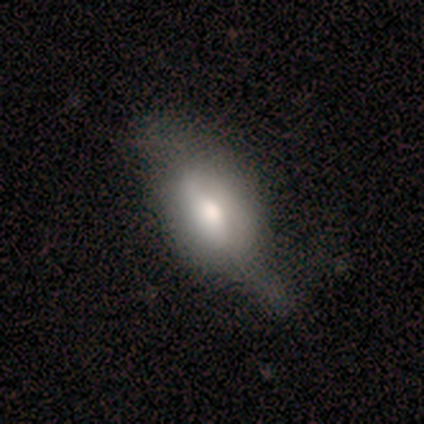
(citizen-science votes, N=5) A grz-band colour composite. It shows a smooth galaxy with no disk features (80%) that is in between round and cigar-shaped (100%). Merging: none (50%, tied with major disturbance).